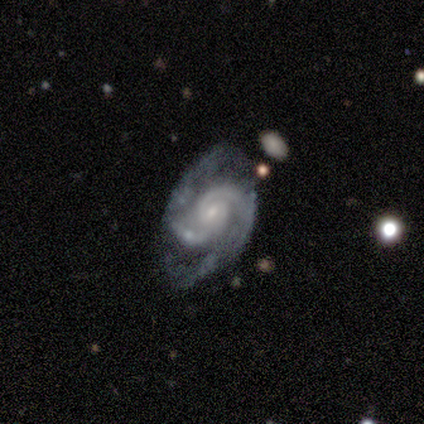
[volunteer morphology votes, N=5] This appears to be a featured or disk galaxy (100%) with no bar (60%), 2 (80%) medium (60%) spiral arms (100%) and a small central bulge (80%). Merging: minor disturbance (60%).